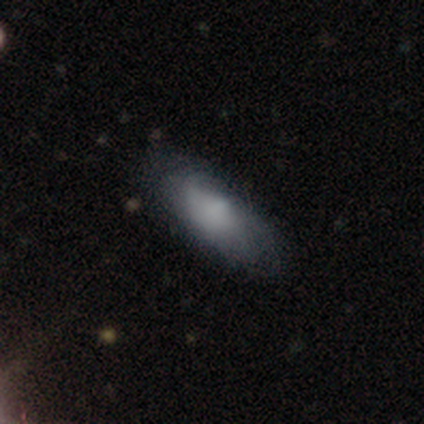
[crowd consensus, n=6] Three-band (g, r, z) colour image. It shows a smooth galaxy with no disk features (100%) that is in between round and cigar-shaped (50%, tied with cigar-shaped). Merging: none (100%).